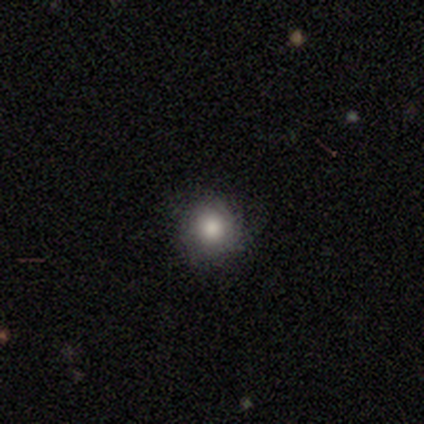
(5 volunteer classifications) smooth-or-featured: smooth: 80% | featured or disk: 20% | star or artifact: 0%
  how-rounded: round: 100% | in between: 0% | cigar-shaped: 0%
  merging: none: 100% | minor disturbance: 0% | major disturbance: 0% | merger: 0%